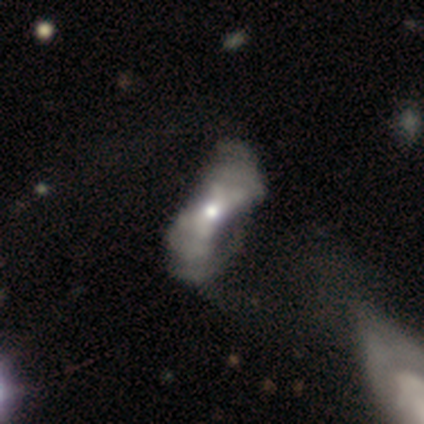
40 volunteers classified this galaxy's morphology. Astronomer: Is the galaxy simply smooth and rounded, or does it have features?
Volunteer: featured or disk — 75%.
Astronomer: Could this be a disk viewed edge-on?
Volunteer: no — 90%.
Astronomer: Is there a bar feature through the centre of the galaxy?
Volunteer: no — 85%.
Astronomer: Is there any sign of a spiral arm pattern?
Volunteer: no — 67%.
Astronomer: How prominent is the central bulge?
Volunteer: moderate — 56% (runner-up: small, 41%).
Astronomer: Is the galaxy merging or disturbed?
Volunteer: major disturbance — 36% (runner-up: none, 13%).